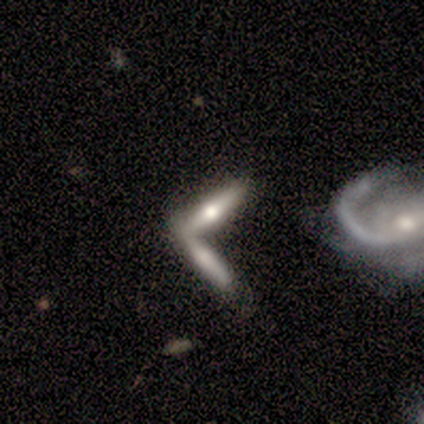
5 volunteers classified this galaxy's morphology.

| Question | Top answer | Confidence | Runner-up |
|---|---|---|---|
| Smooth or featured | featured or disk | 60% | smooth (40%) |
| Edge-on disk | yes | 100% | — |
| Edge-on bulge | rounded | 100% | — |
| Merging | merger | 60% | none (40%) |